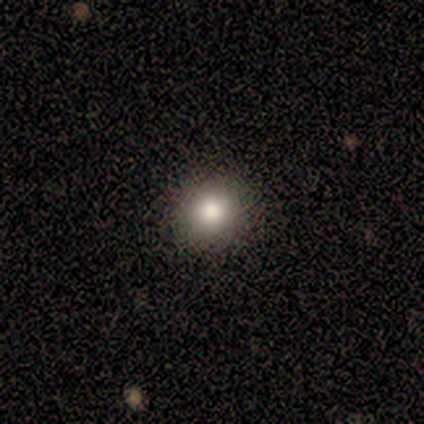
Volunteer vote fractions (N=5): Smooth or featured?
  - smooth: 100% *
  - featured or disk: 0%
  - star or artifact: 0%
How rounded?
  - round: 100% *
  - in between: 0%
  - cigar-shaped: 0%
Merging?
  - none: 100% *
  - minor disturbance: 0%
  - major disturbance: 0%
  - merger: 0%